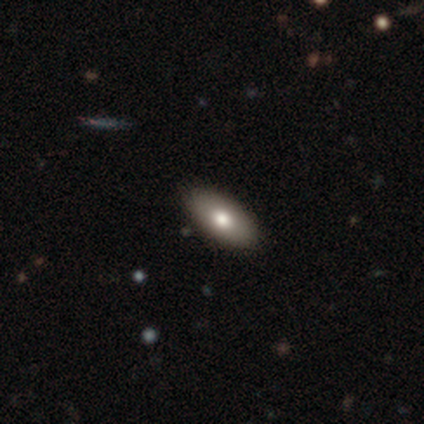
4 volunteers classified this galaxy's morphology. A smooth galaxy with no disk features (75%) that is in between round and cigar-shaped (67%). Merging: none (75%).